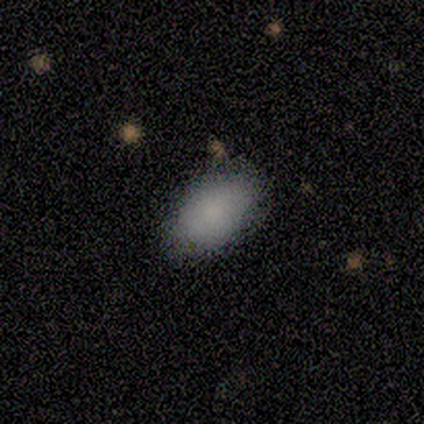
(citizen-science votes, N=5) This appears to be a smooth galaxy with no disk features (100%) that is in between round and cigar-shaped (100%). Merging: none (100%).